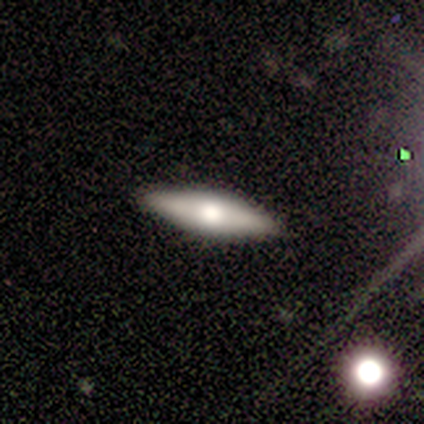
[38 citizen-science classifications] smooth_or_featured: featured or disk (p=0.47) [alt: smooth p=0.45]
disk_edge_on: yes (p=0.72) [alt: no p=0.28]
edge_on_bulge: rounded (p=1.00)
merging: none (p=0.91) [alt: minor disturbance p=0.09]